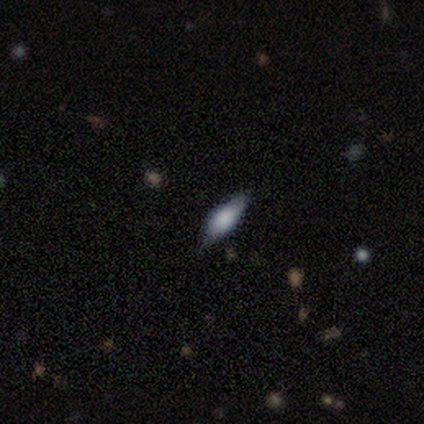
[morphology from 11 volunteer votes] A smooth galaxy with no disk features (55%) that is in between round and cigar-shaped (83%). Merging: none (55%).